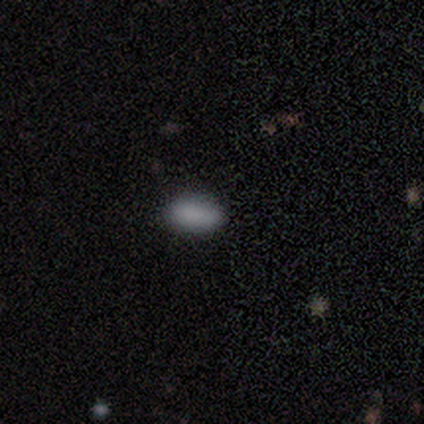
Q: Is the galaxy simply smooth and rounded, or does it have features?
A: smooth — 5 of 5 (100%).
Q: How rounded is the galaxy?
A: in between — 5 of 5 (100%).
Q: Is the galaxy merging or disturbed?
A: none — 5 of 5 (100%).